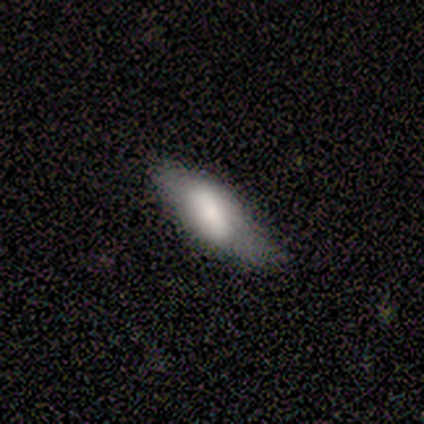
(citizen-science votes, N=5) This appears to be a smooth galaxy with no disk features (60%) that is in between round and cigar-shaped (100%). Merging: none (50%, tied with minor disturbance).